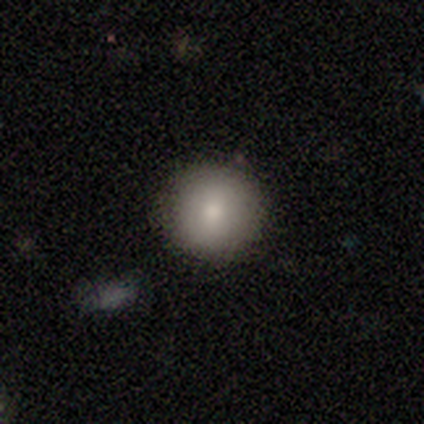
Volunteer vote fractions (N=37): Smooth or featured? 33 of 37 (89%) said smooth. How rounded? 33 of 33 (100%) said round. Merging? 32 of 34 (94%) said none.